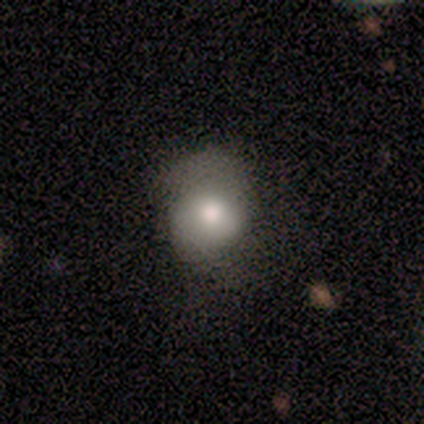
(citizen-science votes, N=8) A smooth galaxy with no disk features (75%) that is round (83%).

Vote fractions:
- Smooth or featured? smooth: 75% / featured or disk: 25% / star or artifact: 0%
- How rounded? round: 83% / in between: 17% / cigar-shaped: 0%
- Merging? minor disturbance: 50% / none: 38% / major disturbance: 12% / merger: 0%